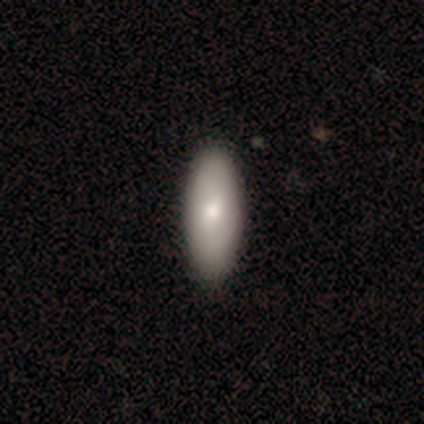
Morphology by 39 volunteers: Smooth or featured? smooth (69%)
How rounded? in between (78%)
Merging? none (70%)